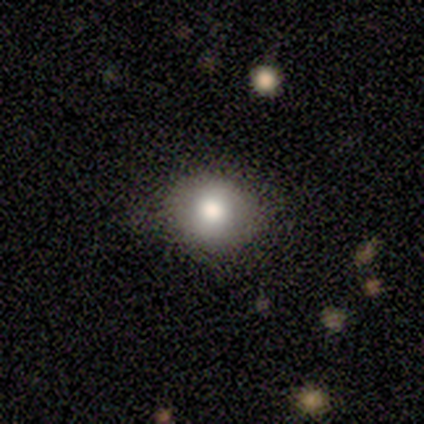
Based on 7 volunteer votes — Volunteers were most divided on "merging": none: 86%, minor disturbance: 14%, major disturbance: 0%, merger: 0%. More confident: smooth or featured — smooth (100%); how rounded — round (100%).